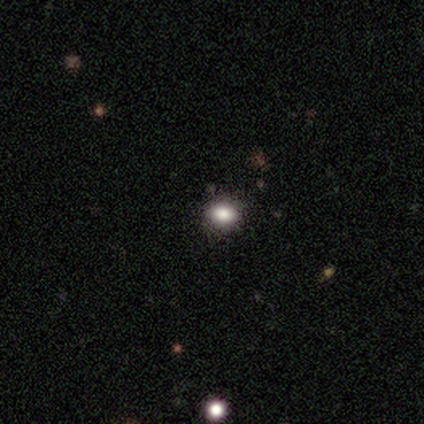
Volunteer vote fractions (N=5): Q: Smooth or featured?
A: smooth (60%); runner-up: featured or disk (20%)
Q: How rounded?
A: in between (100%)
Q: Merging?
A: none (100%)